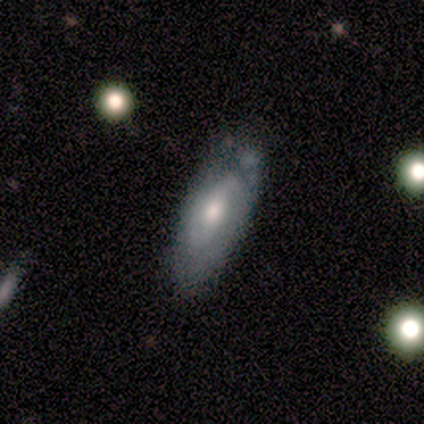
Smooth or featured?
  - smooth: 40% * (tied)
  - featured or disk: 40% * (tied)
  - star or artifact: 20%
How rounded?
  - in between: 100% *
  - round: 0%
  - cigar-shaped: 0%
Merging?
  - none: 75% *
  - minor disturbance: 25%
  - major disturbance: 0%
  - merger: 0%